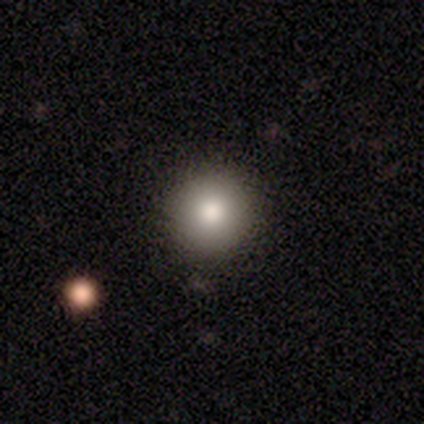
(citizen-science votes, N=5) smooth_or_featured: smooth (p=0.80) [alt: star or artifact p=0.20]
how_rounded: round (p=1.00)
merging: none (p=1.00)